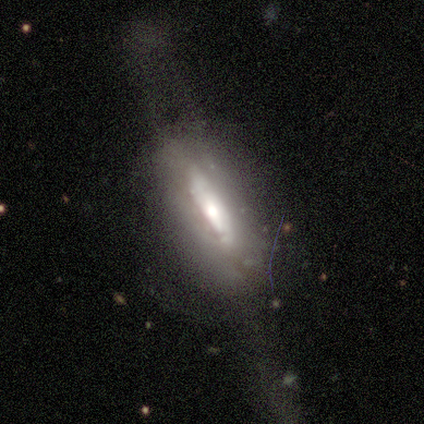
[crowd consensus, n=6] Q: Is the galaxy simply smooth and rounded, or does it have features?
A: featured or disk — 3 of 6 (50%).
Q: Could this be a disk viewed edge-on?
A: yes — 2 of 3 (67%).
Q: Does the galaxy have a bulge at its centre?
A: rounded — 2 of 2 (100%).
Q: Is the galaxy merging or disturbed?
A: none — 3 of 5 (60%).